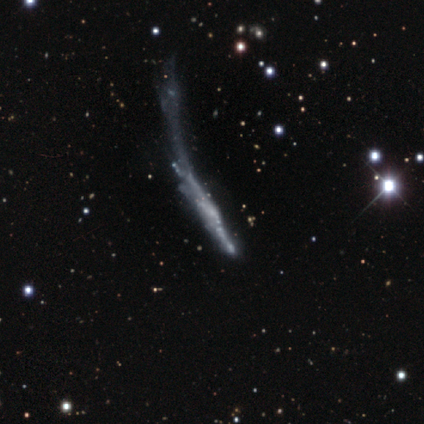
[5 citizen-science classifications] A featured or disk galaxy (100%) viewed edge-on (60%) with no central bulge (100%).

Vote fractions:
- Smooth or featured? featured or disk: 100% / smooth: 0% / star or artifact: 0%
- Edge-on disk? yes: 60% / no: 40%
- Edge-on bulge? none: 100% / boxy: 0% / rounded: 0%
- Merging? major disturbance: 80% / minor disturbance: 20% / none: 0% / merger: 0%